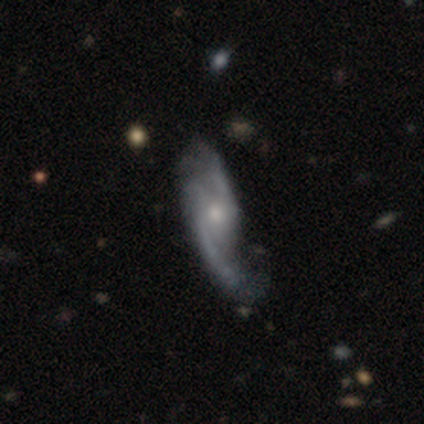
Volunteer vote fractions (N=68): smooth-or-featured: featured or disk: 85% | smooth: 10% | star or artifact: 4%
  disk-edge-on: no: 91% | yes: 9%
    bar: no: 64% | weak: 34% | strong: 2%
    has-spiral-arms: yes: 96% | no: 4%
      spiral-winding: loose: 57% | medium: 29% | tight: 14%
      spiral-arm-count: 2: 75% | 3: 16% | can't tell: 4% | 1: 2% | 4: 2% | more than 4: 2%
    bulge-size: moderate: 49% | small: 45% | large: 4% | none: 2% | dominant: 0%
  merging: none: 38% | minor disturbance: 34% | major disturbance: 28% | merger: 0%